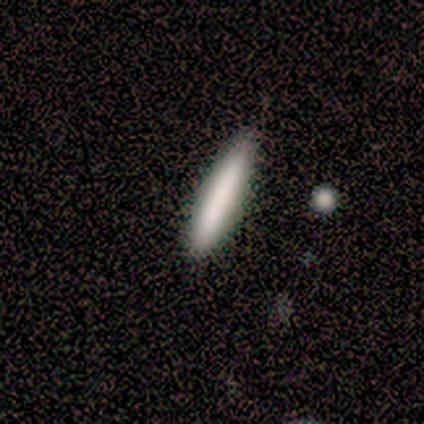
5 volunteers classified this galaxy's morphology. Overall: smooth (100%). How rounded: cigar-shaped (100%). Merging: none (80%).